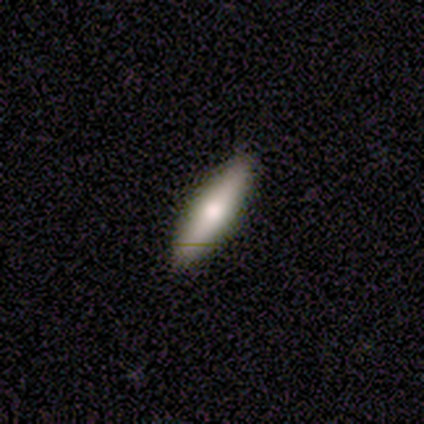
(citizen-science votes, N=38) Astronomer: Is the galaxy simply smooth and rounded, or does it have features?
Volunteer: smooth — 55% (runner-up: featured or disk, 45%).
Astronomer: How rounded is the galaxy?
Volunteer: cigar-shaped — 62% (runner-up: in between, 38%).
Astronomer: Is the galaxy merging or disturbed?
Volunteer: none — 92%.